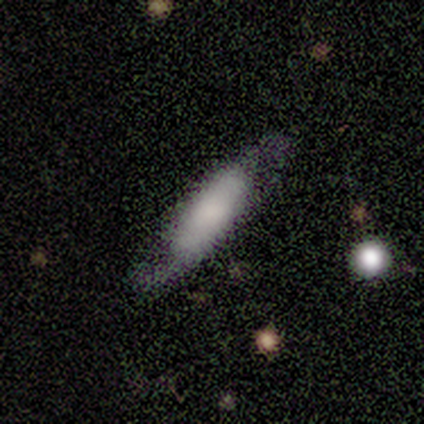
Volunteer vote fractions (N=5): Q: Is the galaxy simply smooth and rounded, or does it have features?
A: featured or disk — 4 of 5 (80%).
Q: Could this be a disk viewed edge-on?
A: yes — 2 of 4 (50%, tied with no).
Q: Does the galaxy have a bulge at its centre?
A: boxy — 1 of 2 (50%, tied with none).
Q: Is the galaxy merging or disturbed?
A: none — 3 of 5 (60%).